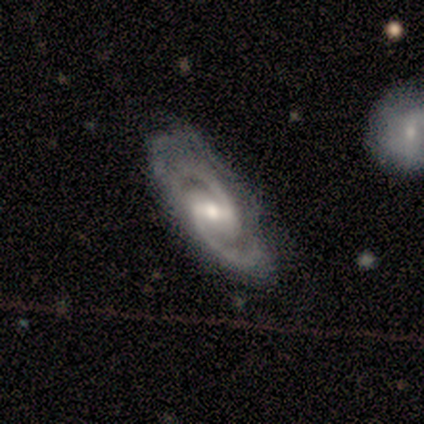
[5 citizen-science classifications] A featured or disk galaxy (80%) with a weak bar (75%), 2 (100%) medium (100%) spiral arms (100%) and a moderate central bulge (50%, tied with small). Merging: none (80%).